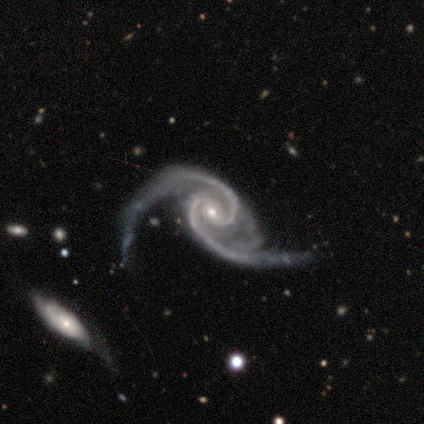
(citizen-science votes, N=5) Overall: featured or disk (100%). Edge-on disk: no (100%). Bar: no (80%). Spiral arms: yes (100%). Spiral arm count: 2 (100%). Spiral winding: medium (60%; loose 40%). Bulge size: small (60%; moderate 40%). Merging: minor disturbance (80%).